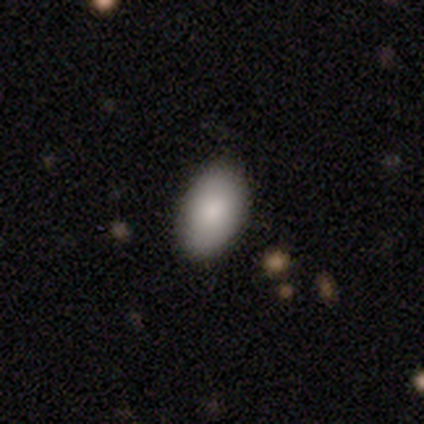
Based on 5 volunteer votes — A smooth galaxy with no disk features (100%) that is in between round and cigar-shaped (100%). Merging: none (100%).